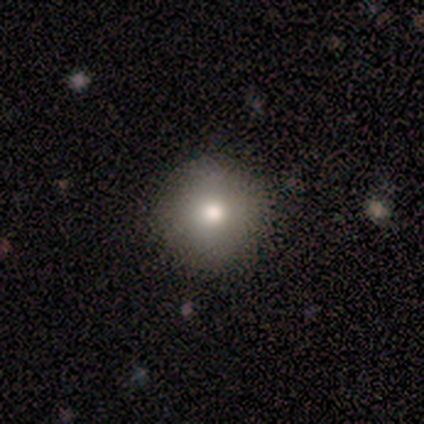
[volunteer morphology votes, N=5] Smooth or featured? smooth (80%)
How rounded? round (100%)
Merging? none (100%)